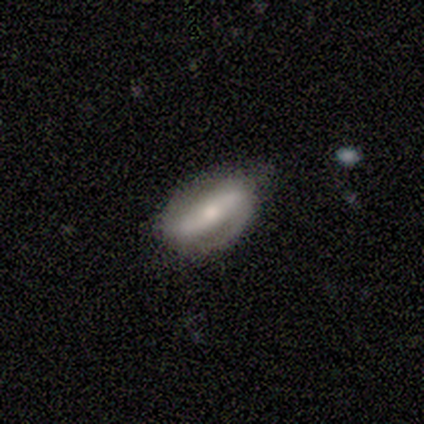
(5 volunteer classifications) Smooth or featured?
  - featured or disk: 60% *
  - smooth: 40%
  - star or artifact: 0%
Edge-on disk?
  - no: 100% *
  - yes: 0%
Bar?
  - weak: 67% *
  - no: 33%
  - strong: 0%
Spiral arms?
  - yes: 100% *
  - no: 0%
Spiral winding?
  - loose: 67% *
  - tight: 33%
  - medium: 0%
Spiral arm count?
  - 2: 100% *
  - 1: 0%
  - 3: 0%
  - 4: 0%
  - more than 4: 0%
  - can't tell: 0%
Bulge size?
  - small: 67% *
  - moderate: 33%
  - dominant: 0%
  - large: 0%
  - none: 0%
Merging?
  - none: 80% *
  - minor disturbance: 20%
  - major disturbance: 0%
  - merger: 0%